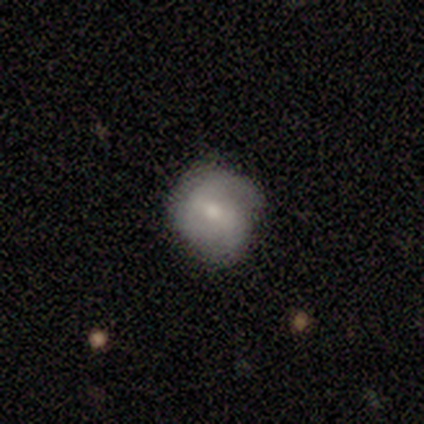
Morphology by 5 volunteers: Smooth or featured?
  - smooth: 60% *
  - featured or disk: 40%
  - star or artifact: 0%
How rounded?
  - round: 100% *
  - in between: 0%
  - cigar-shaped: 0%
Merging?
  - none: 80% *
  - major disturbance: 20%
  - minor disturbance: 0%
  - merger: 0%